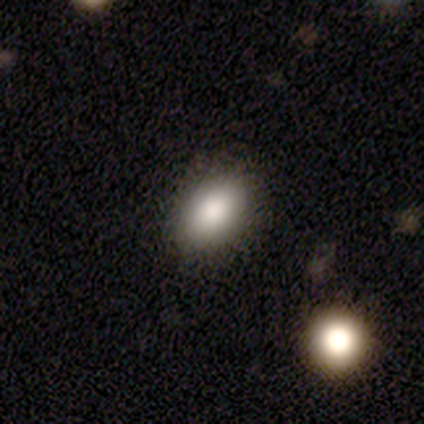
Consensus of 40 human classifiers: smooth 95%, featured or disk 2%, star or artifact 2%. Down the decision tree: how rounded — in between (95%); merging — none (59%).